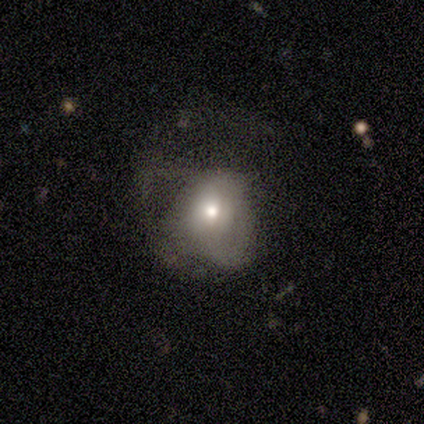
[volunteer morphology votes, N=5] featured or disk 60%, smooth 40%, star or artifact 0%. Down the decision tree: edge-on disk — no (100%); bar — no (100%); spiral arms — no (67%); bulge size — moderate (67%); merging — major disturbance (80%).